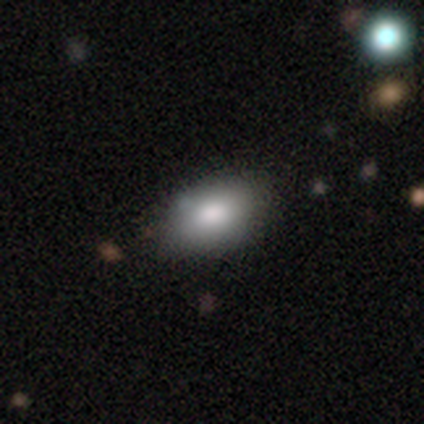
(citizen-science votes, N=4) A smooth galaxy with no disk features (75%) that is in between round and cigar-shaped (100%).

Vote fractions:
- Smooth or featured? smooth: 75% / featured or disk: 25% / star or artifact: 0%
- How rounded? in between: 100% / round: 0% / cigar-shaped: 0%
- Merging? minor disturbance: 75% / none: 25% / major disturbance: 0% / merger: 0%